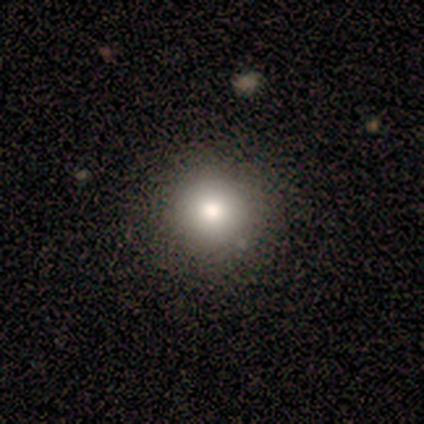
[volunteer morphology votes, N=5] type=smooth (80%); roundness=round (100%); merging=none (80%).